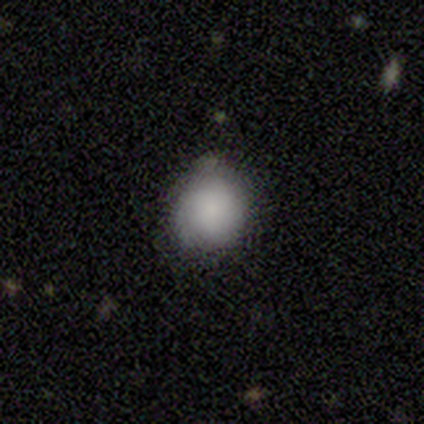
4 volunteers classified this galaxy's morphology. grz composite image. It shows a smooth galaxy with no disk features (75%) that is in between round and cigar-shaped (67%). Merging: none (75%).